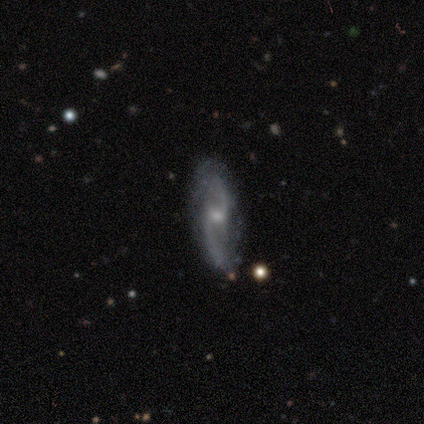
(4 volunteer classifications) Overall: featured or disk (75%). Edge-on disk: no (100%). Bar: weak (100%). Spiral arms: yes (67%; no 33%). Spiral arm count: 2 (100%). Spiral winding: medium (50%, tied with loose). Bulge size: moderate (67%; small 33%). Merging: none (75%).